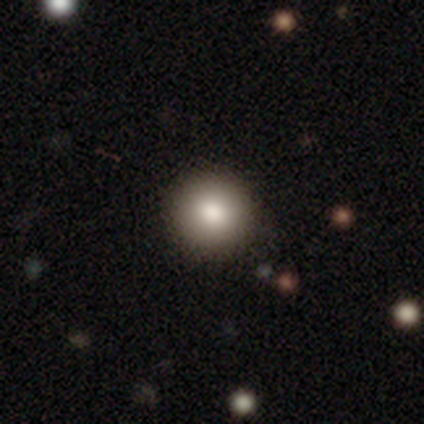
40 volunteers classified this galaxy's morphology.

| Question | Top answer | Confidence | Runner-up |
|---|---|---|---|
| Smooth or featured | smooth | 90% | featured or disk (5%) |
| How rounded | round | 94% | in between (6%) |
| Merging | none | 68% | — |